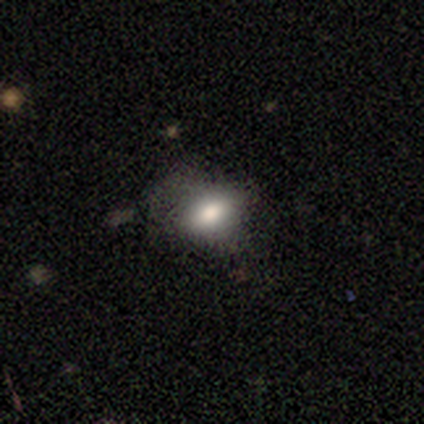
Volunteers were most divided on "merging": none: 50%, minor disturbance: 25%, major disturbance: 25%, merger: 0%. More confident: how rounded — in between (100%); smooth or featured — smooth (75%).